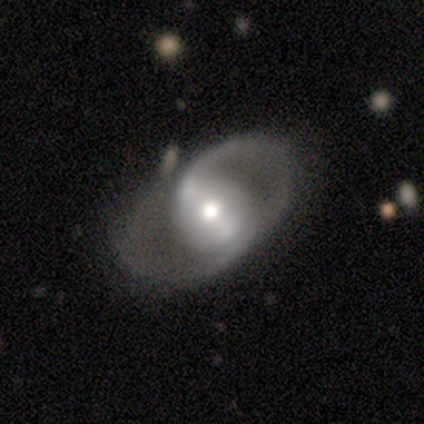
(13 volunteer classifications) Q: Smooth or featured?
A: featured or disk (92%); runner-up: smooth (8%)
Q: Edge-on disk?
A: no (92%); runner-up: yes (8%)
Q: Bar?
A: weak (45%); runner-up: strong (27%)
Q: Spiral arms?
A: yes (82%); runner-up: no (18%)
Q: Spiral winding?
A: loose (56%); runner-up: medium (33%)
Q: Spiral arm count?
A: 2 (78%); runner-up: 3 (11%)
Q: Bulge size?
A: moderate (82%); runner-up: large (9%)
Q: Merging?
A: none (77%); runner-up: minor disturbance (15%)